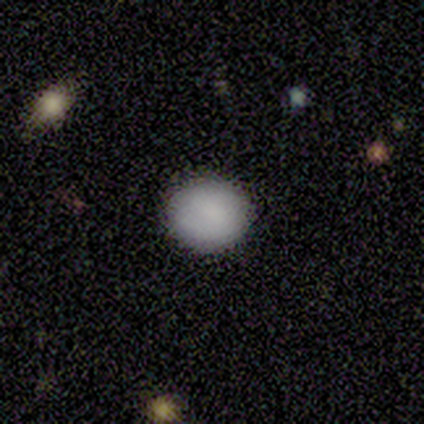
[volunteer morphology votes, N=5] smooth_or_featured: smooth (p=0.60) [alt: featured or disk p=0.40]
how_rounded: round (p=1.00)
merging: none (p=0.60) [alt: minor disturbance p=0.20]